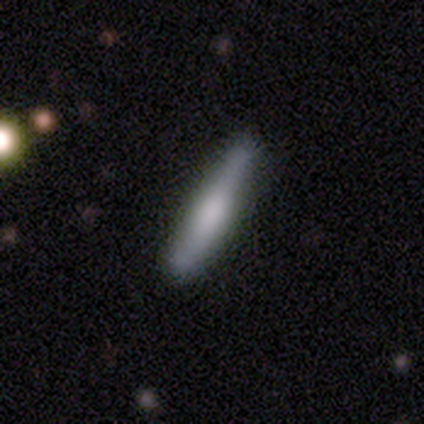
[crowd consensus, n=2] Smooth or featured?
  - smooth: 50% * (tied)
  - featured or disk: 50% * (tied)
  - star or artifact: 0%
How rounded?
  - cigar-shaped: 100% *
  - round: 0%
  - in between: 0%
Merging?
  - none: 100% *
  - minor disturbance: 0%
  - major disturbance: 0%
  - merger: 0%